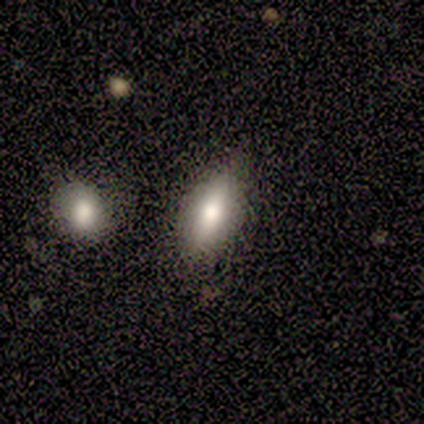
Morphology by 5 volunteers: smooth-or-featured: smooth: 80% | star or artifact: 20% | featured or disk: 0%
  how-rounded: in between: 75% | cigar-shaped: 25% | round: 0%
  merging: none: 75% | merger: 25% | minor disturbance: 0% | major disturbance: 0%